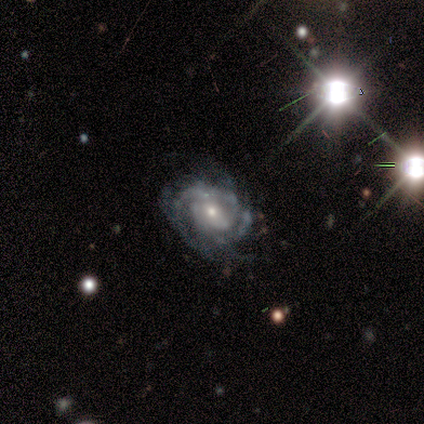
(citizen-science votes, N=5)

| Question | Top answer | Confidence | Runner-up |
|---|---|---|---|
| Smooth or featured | featured or disk | 100% | — |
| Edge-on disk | no | 100% | — |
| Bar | weak | 60% | no (40%) |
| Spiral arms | yes | 100% | — |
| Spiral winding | tight | 60% | medium (40%) |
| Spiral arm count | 2 | 60% | 3 (20%) |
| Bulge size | small | 60% | large (20%) |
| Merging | none | 80% | minor disturbance (20%) |